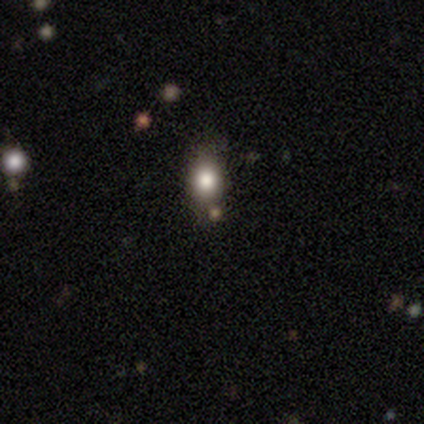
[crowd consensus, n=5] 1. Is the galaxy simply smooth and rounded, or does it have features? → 100% smooth, 0% featured or disk, 0% star or artifact.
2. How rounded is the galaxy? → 80% round, 20% in between, 0% cigar-shaped.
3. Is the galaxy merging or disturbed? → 80% none, 20% minor disturbance, 0% major disturbance, 0% merger.